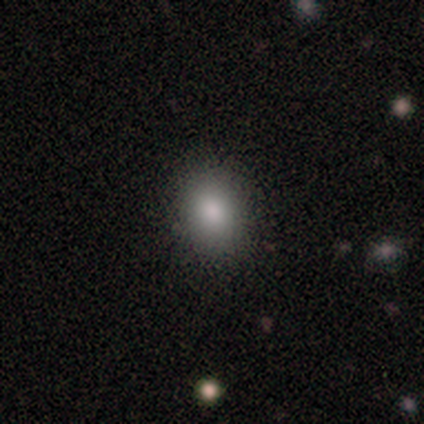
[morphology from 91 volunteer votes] type=smooth (81%); roundness=in between (51%); merging=none (85%).